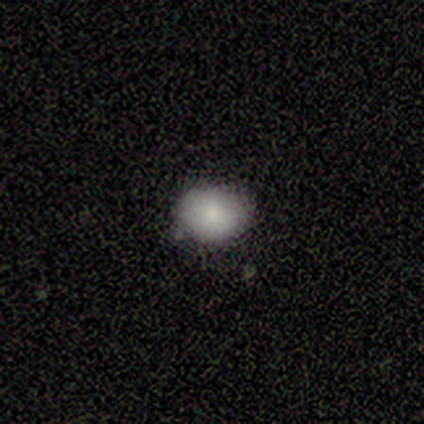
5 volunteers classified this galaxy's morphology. A smooth galaxy with no disk features (100%) that is in between round and cigar-shaped (60%).

Vote fractions:
- Smooth or featured? smooth: 100% / featured or disk: 0% / star or artifact: 0%
- How rounded? in between: 60% / round: 40% / cigar-shaped: 0%
- Merging? none: 80% / minor disturbance: 20% / major disturbance: 0% / merger: 0%